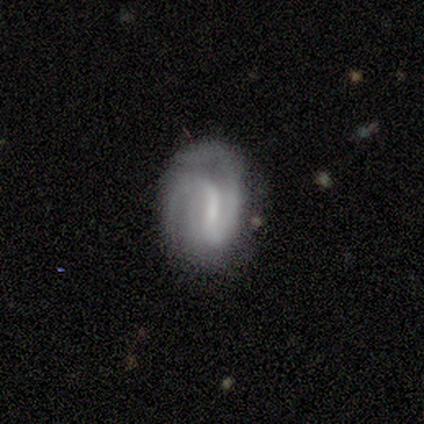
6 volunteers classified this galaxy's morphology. Volunteers were most divided on "smooth or featured": smooth: 67%, featured or disk: 33%, star or artifact: 0%. More confident: merging — none (100%); how rounded — in between (75%).